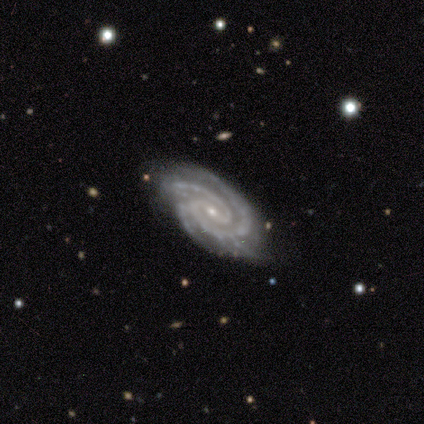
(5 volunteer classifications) Smooth or featured?
  - featured or disk: 80% *
  - star or artifact: 20%
  - smooth: 0%
Edge-on disk?
  - no: 100% *
  - yes: 0%
Bar?
  - weak: 50% * (tied)
  - no: 50% * (tied)
  - strong: 0%
Spiral arms?
  - yes: 100% *
  - no: 0%
Spiral winding?
  - tight: 100% *
  - medium: 0%
  - loose: 0%
Spiral arm count?
  - 2: 75% *
  - 3: 25%
  - 1: 0%
  - 4: 0%
  - more than 4: 0%
  - can't tell: 0%
Bulge size?
  - small: 75% *
  - moderate: 25%
  - dominant: 0%
  - large: 0%
  - none: 0%
Merging?
  - none: 75% *
  - minor disturbance: 25%
  - major disturbance: 0%
  - merger: 0%